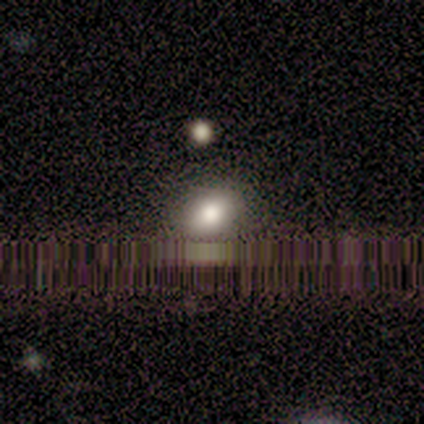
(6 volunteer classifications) Volunteers were most divided on "how rounded": round: 60%, in between: 40%, cigar-shaped: 0%. More confident: smooth or featured — smooth (83%); merging — none (67%).